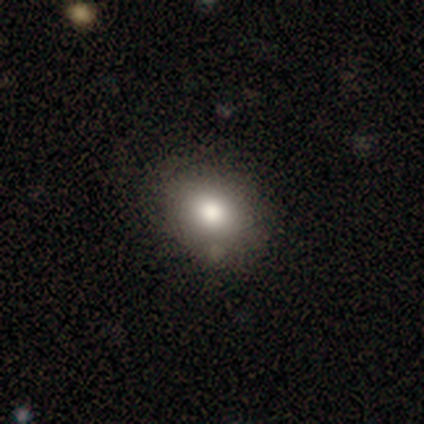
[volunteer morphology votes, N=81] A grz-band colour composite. It shows a smooth galaxy with no disk features (75%) that is in between round and cigar-shaped (54%). Merging: none (92%).